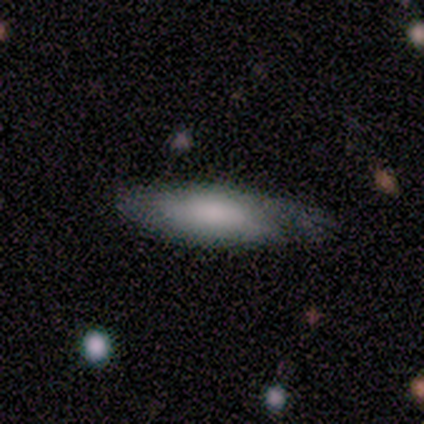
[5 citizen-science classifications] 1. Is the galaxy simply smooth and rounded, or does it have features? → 100% smooth, 0% featured or disk, 0% star or artifact.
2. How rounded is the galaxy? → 60% in between, 40% cigar-shaped, 0% round.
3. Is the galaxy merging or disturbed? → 60% minor disturbance, 20% none, 20% major disturbance, 0% merger.